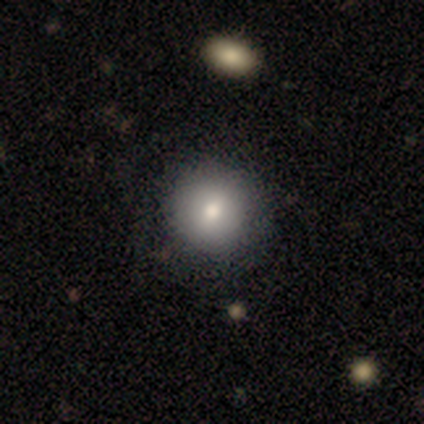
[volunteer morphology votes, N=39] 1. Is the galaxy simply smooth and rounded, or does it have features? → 77% smooth, 15% featured or disk, 8% star or artifact.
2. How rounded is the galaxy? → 90% round, 10% in between, 0% cigar-shaped.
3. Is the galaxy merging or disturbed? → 83% none, 6% merger, 0% minor disturbance, 0% major disturbance.